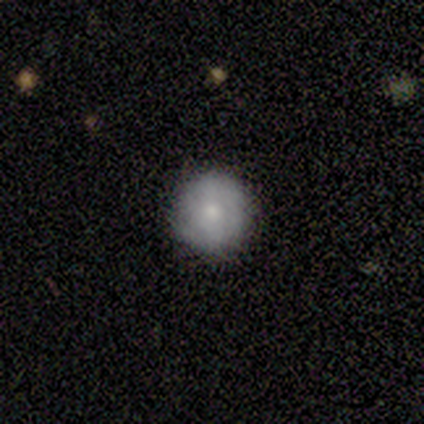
This appears to be a featured or disk galaxy (60%) with no bar (67%), tight (67%) spiral arms (100%) and a moderate central bulge (67%). Merging: none (100%).